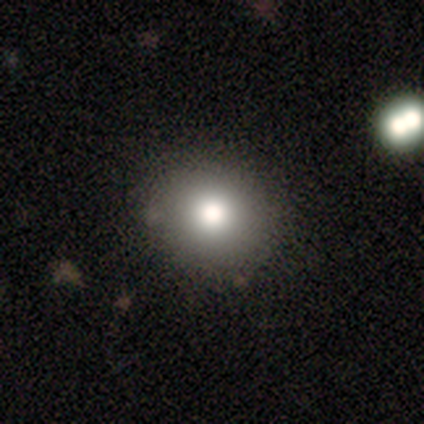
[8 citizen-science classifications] smooth 75%, featured or disk 12%, star or artifact 12%. Down the decision tree: how rounded — round (100%); merging — none (100%).